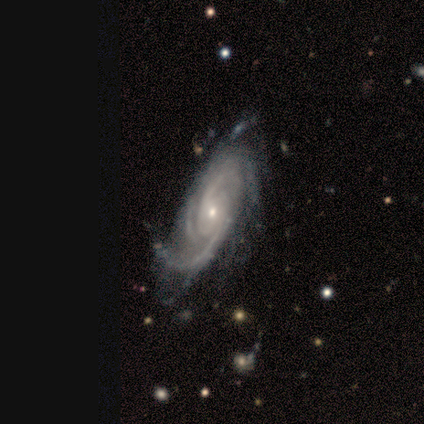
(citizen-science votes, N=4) Volunteers were most divided on "spiral winding" (3-way tie): tight: 33%, medium: 33%, loose: 33%. More confident: smooth or featured — featured or disk (100%); spiral arms — yes (100%); spiral arm count — 2 (100%); bulge size — small (100%); merging — none (100%); edge-on disk — no (75%); bar — weak (67%).